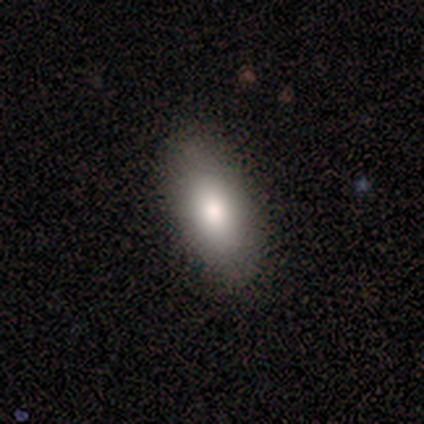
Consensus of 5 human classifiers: Smooth or featured?
  - smooth: 100% *
  - featured or disk: 0%
  - star or artifact: 0%
How rounded?
  - in between: 100% *
  - round: 0%
  - cigar-shaped: 0%
Merging?
  - none: 100% *
  - minor disturbance: 0%
  - major disturbance: 0%
  - merger: 0%